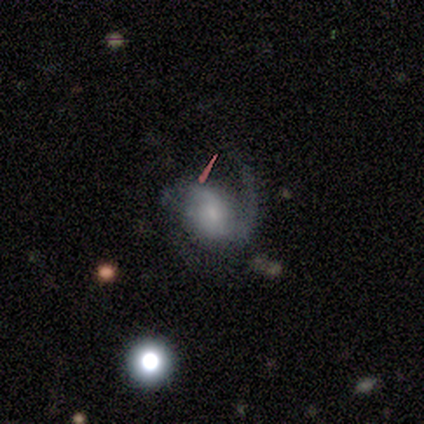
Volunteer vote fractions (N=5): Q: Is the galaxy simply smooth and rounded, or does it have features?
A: featured or disk — 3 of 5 (60%).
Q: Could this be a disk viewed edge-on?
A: no — 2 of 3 (67%).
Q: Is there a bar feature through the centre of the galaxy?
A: weak — 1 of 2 (50%, tied with no).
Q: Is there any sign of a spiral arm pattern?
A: yes — 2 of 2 (100%).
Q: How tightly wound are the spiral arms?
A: tight — 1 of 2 (50%, tied with medium).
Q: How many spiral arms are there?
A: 2 — 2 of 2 (100%).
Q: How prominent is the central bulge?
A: small — 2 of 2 (100%).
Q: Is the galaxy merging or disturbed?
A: minor disturbance — 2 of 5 (40%, tied with major disturbance).